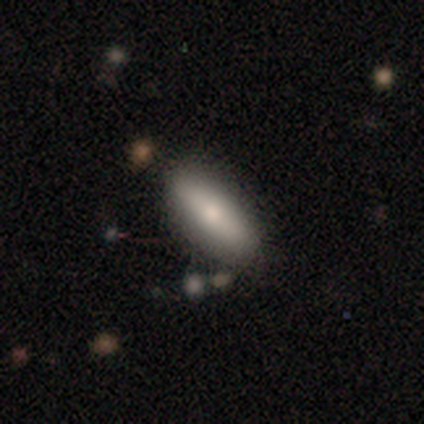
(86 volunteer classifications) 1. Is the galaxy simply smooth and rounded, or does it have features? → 71% smooth, 23% featured or disk, 6% star or artifact.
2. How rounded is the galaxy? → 54% in between, 44% cigar-shaped, 2% round.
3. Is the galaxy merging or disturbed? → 85% none, 11% minor disturbance, 4% merger, 0% major disturbance.